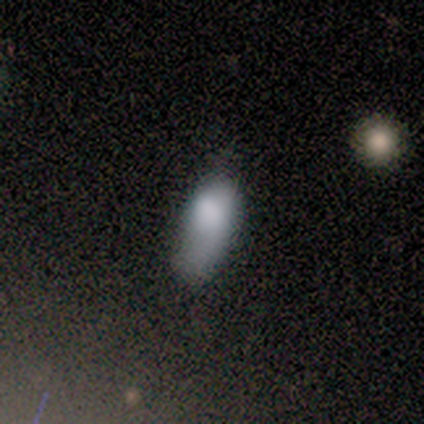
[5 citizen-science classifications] Overall: smooth (100%). How rounded: in between (40%, tied with cigar-shaped). Merging: minor disturbance (60%; none 20%).